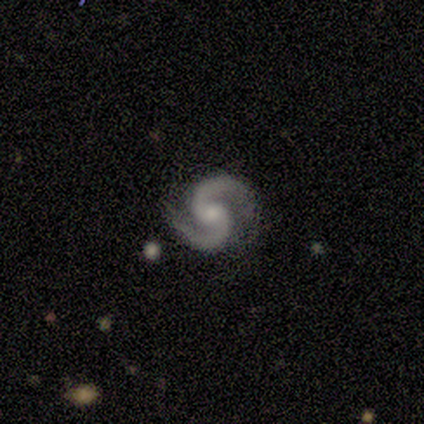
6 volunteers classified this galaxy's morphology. Smooth or featured? featured or disk (83%)
Edge-on disk? no (100%)
Bar? no (60%)
Spiral arms? yes (100%)
Spiral winding? medium (60%)
Spiral arm count? 2 (100%)
Bulge size? moderate (60%)
Merging? none (100%)